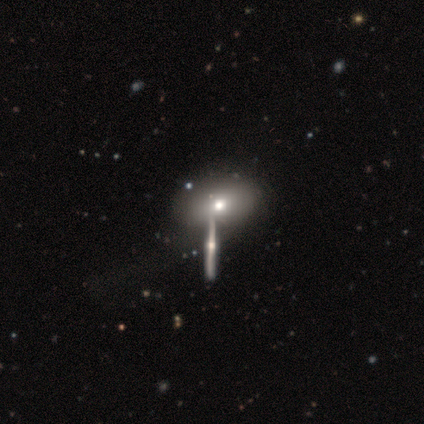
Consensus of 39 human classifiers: Volunteers were most divided on "merging": merger: 38%, none: 32%, minor disturbance: 15%, major disturbance: 15%. More confident: how rounded — in between (96%); smooth or featured — smooth (59%).